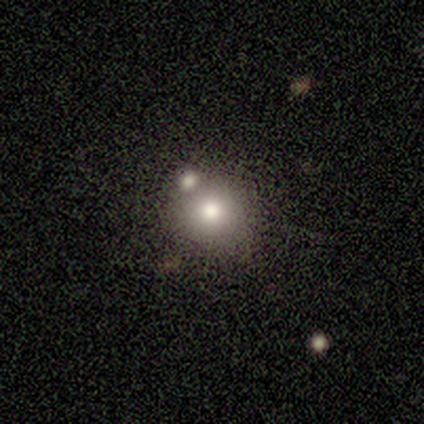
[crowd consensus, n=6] Smooth or featured: smooth — 50% (tied with star or artifact — 50%)
How rounded: round — 100%
Merging: none — 100%